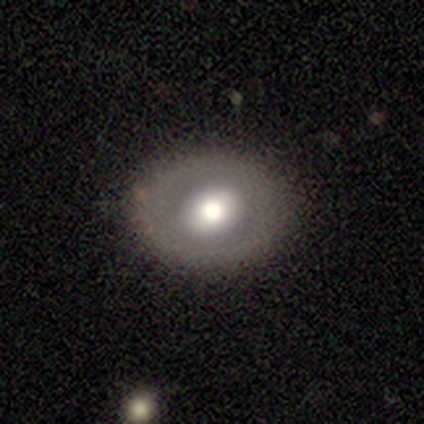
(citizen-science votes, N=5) A featured or disk galaxy (60%) with no bar (67%), no spiral arms (100%) and a moderate central bulge (100%). Merging: none (67%).